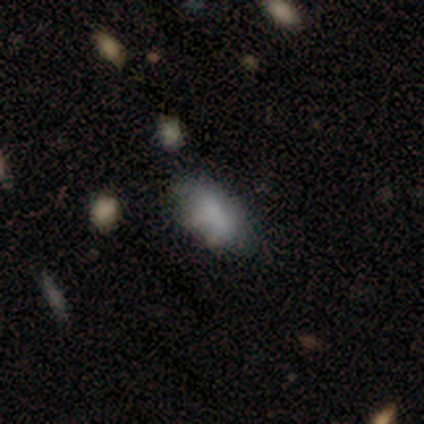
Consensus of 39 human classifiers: Smooth or featured: smooth — 72% (featured or disk — 18%)
How rounded: in between — 96% (cigar-shaped — 4%)
Merging: none — 63% (minor disturbance — 23%)